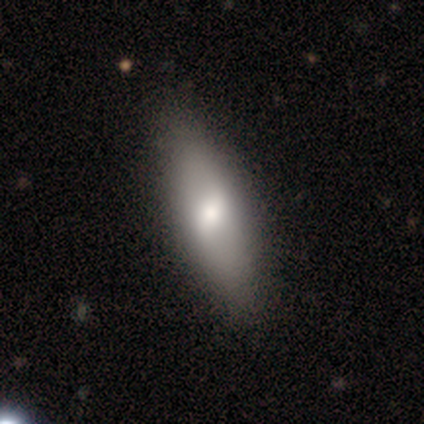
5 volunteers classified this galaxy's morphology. This is likely a smooth galaxy (60%). How rounded: likely cigar-shaped (67%). Merging: clearly none (100%).